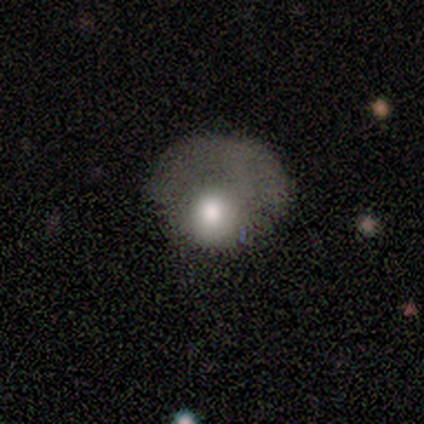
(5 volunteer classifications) Overall: smooth (60%; featured or disk 40%). How rounded: in between (67%; round 33%). Merging: major disturbance (60%; none 40%).